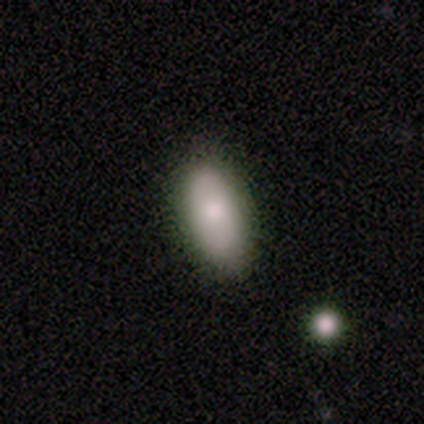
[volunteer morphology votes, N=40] smooth_or_featured: smooth (p=0.80) [alt: star or artifact p=0.15]
how_rounded: in between (p=0.91) [alt: cigar-shaped p=0.06]
merging: none (p=0.68) [alt: minor disturbance p=0.21]